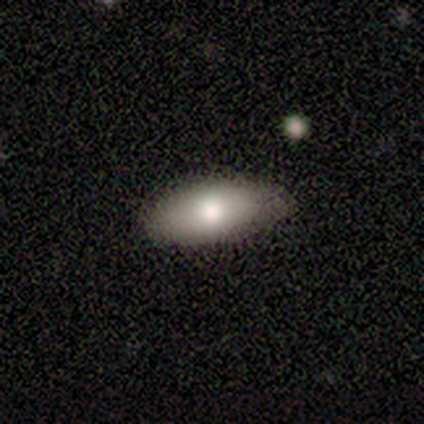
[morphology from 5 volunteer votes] smooth-or-featured: featured or disk: 40% (tied) | star or artifact: 40% (tied) | smooth: 20%
  disk-edge-on: yes: 50% (tied) | no: 50% (tied)
    edge-on-bulge: rounded: 100% | boxy: 0% | none: 0%
  merging: none: 100% | minor disturbance: 0% | major disturbance: 0% | merger: 0%